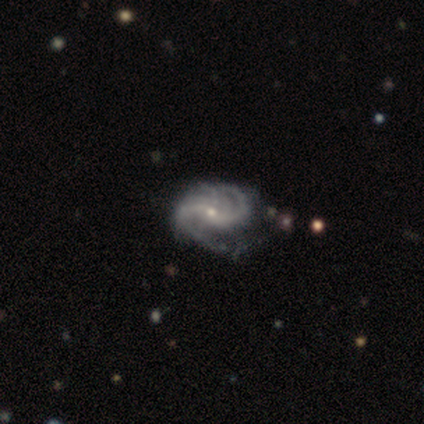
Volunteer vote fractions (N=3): Volunteers were most divided on "merging" (3-way tie): none: 33%, minor disturbance: 33%, major disturbance: 33%, merger: 0%. More confident: smooth or featured — featured or disk (100%); edge-on disk — no (100%); spiral arms — yes (100%); bulge size — small (100%); bar — weak (67%); spiral winding — tight (67%); spiral arm count — 2 (67%).